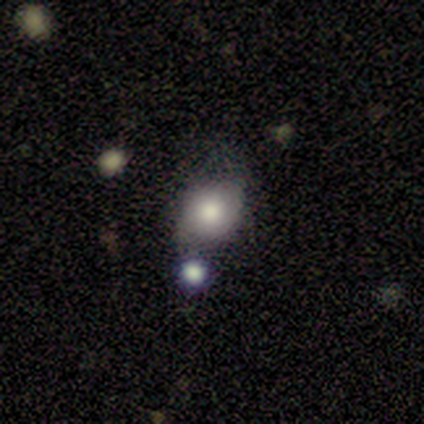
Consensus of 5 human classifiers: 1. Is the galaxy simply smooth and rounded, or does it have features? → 80% smooth, 20% featured or disk, 0% star or artifact.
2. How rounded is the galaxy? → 50% round (tied), 50% in between (tied), 0% cigar-shaped.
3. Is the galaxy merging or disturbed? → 60% none, 20% minor disturbance, 20% merger, 0% major disturbance.